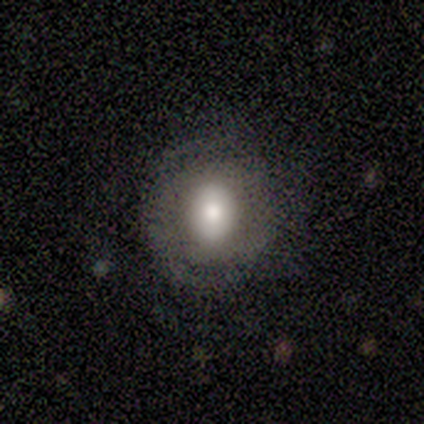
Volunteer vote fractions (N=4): A smooth galaxy with no disk features (75%) that is round (100%). Merging: none (100%).